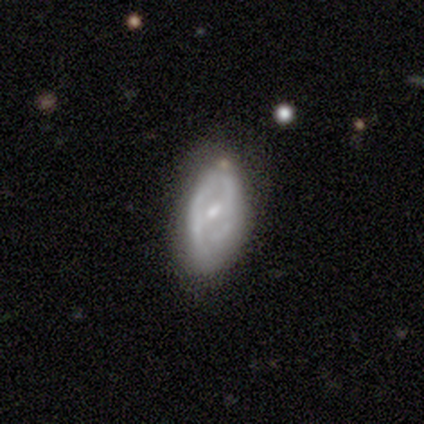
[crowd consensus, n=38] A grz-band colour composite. It shows a featured or disk galaxy (71%) with a weak bar (50%), medium (43%) spiral arms (58%) and a small central bulge (54%). Merging: none (61%).